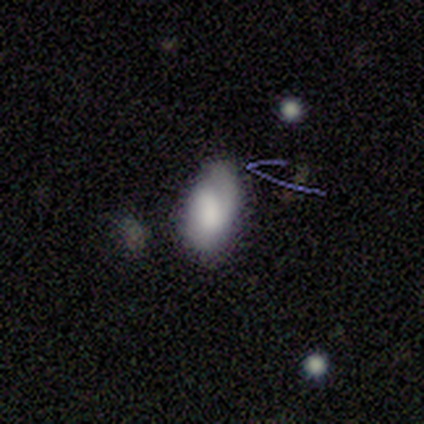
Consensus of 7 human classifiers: Smooth or featured? 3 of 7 (43%, tied with featured or disk) said smooth. How rounded? 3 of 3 (100%) said in between. Merging? 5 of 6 (83%) said none.